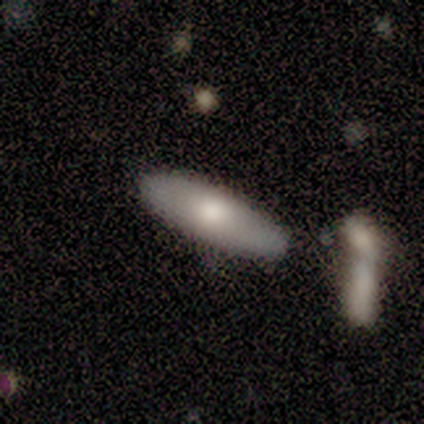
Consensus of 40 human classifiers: Morphology: type=smooth (55%); roundness=in between (59%); merging=none (54%).